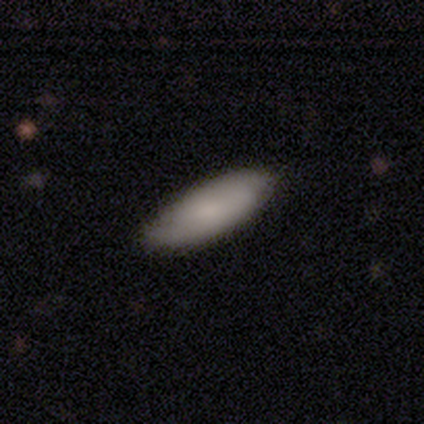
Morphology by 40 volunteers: smooth_or_featured: smooth (p=0.60) [alt: featured or disk p=0.35]
how_rounded: in between (p=0.83) [alt: cigar-shaped p=0.17]
merging: none (p=0.53) [alt: minor disturbance p=0.13]